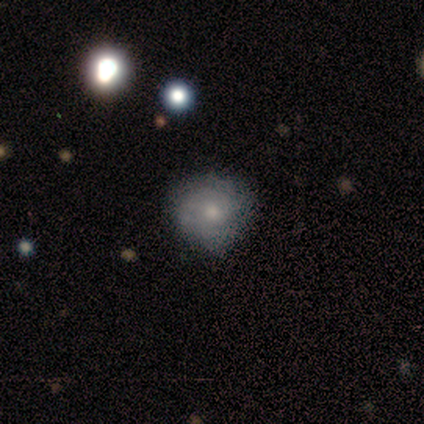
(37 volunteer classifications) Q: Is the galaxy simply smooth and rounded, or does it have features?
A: featured or disk — 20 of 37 (54%).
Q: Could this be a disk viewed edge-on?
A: no — 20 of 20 (100%).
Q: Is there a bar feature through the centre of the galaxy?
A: no — 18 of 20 (90%).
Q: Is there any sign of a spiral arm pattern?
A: yes — 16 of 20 (80%).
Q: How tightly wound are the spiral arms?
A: tight — 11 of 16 (69%).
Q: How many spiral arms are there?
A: can't tell — 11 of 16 (69%).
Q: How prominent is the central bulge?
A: moderate — 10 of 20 (50%).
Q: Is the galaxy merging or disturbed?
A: none — 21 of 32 (66%).